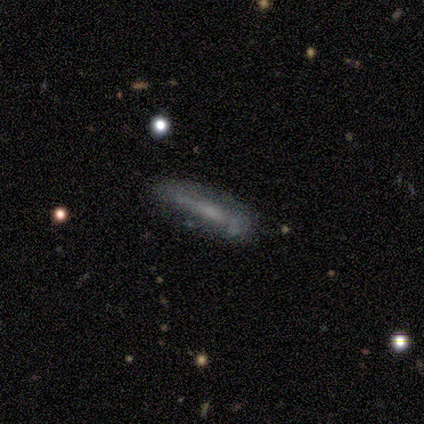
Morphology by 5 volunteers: smooth_or_featured: smooth (p=0.60) [alt: featured or disk p=0.40]
how_rounded: cigar-shaped (p=0.67) [alt: in between p=0.33]
merging: none (p=0.60) [alt: minor disturbance p=0.40]